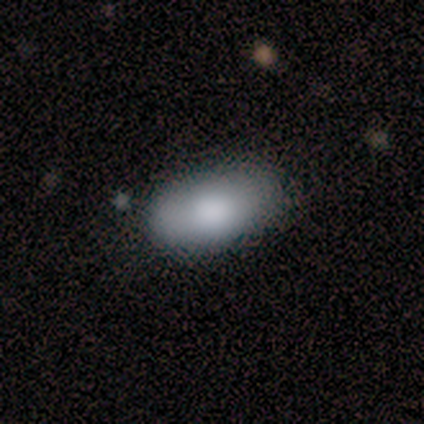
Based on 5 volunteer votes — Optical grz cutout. It shows a smooth galaxy with no disk features (100%) that is in between round and cigar-shaped (80%). Merging: none (80%).